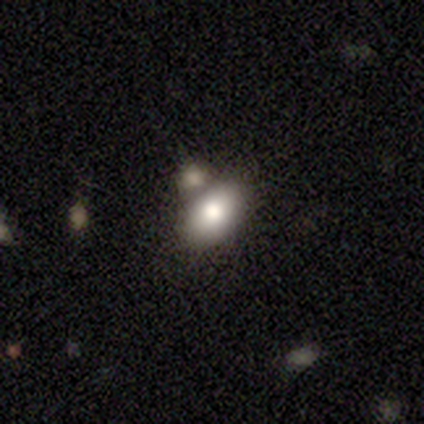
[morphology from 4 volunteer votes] Smooth or featured? 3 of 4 (75%) said smooth. How rounded? 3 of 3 (100%) said in between. Merging? 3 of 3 (100%) said none.